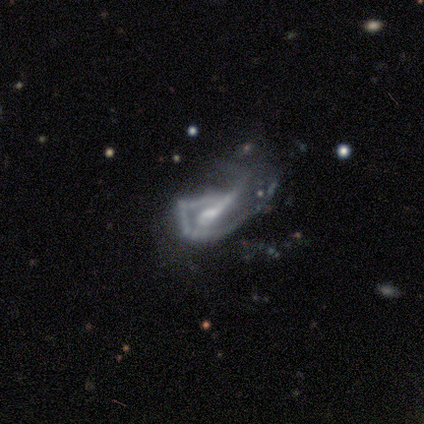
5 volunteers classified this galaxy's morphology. smooth_or_featured: featured or disk (p=1.00)
disk_edge_on: no (p=1.00)
bar: weak (p=0.60) [alt: strong p=0.20]
has_spiral_arms: yes (p=0.60) [alt: no p=0.40]
spiral_winding: tight (p=0.33) [tied with: medium p=0.33, loose p=0.33]
spiral_arm_count: can't tell (p=0.67) [alt: 1 p=0.33]
bulge_size: moderate (p=0.60) [alt: small p=0.20]
merging: major disturbance (p=0.60) [alt: none p=0.40]